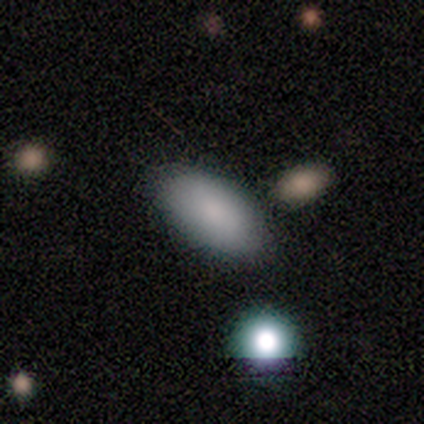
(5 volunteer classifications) A smooth galaxy with no disk features (60%) that is in between round and cigar-shaped (100%). Merging: none (50%).